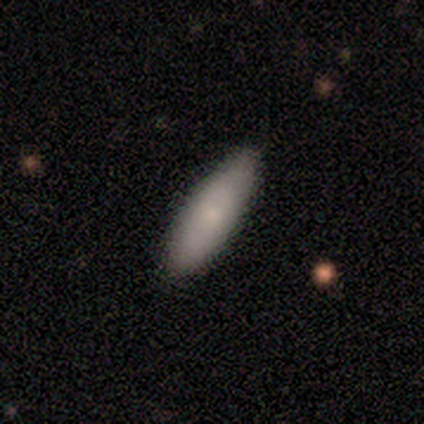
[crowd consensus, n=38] Smooth or featured?
  - smooth: 82% *
  - featured or disk: 16%
  - star or artifact: 3%
How rounded?
  - in between: 58% *
  - cigar-shaped: 42%
  - round: 0%
Merging?
  - none: 84% *
  - minor disturbance: 11%
  - major disturbance: 3%
  - merger: 3%